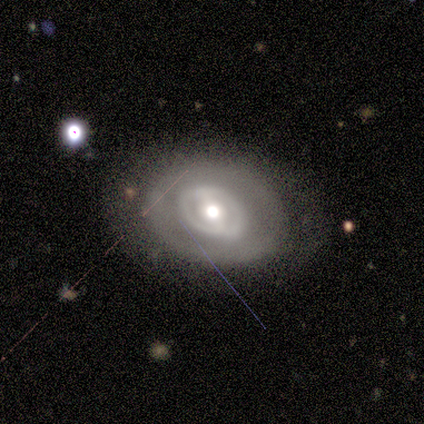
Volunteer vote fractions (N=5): smooth_or_featured: featured or disk (p=0.80) [alt: smooth p=0.20]
disk_edge_on: no (p=1.00)
bar: weak (p=0.75) [alt: no p=0.25]
has_spiral_arms: yes (p=0.50) [tied with: no p=0.50]
spiral_winding: medium (p=0.50) [tied with: loose p=0.50]
spiral_arm_count: 1 (p=0.50) [tied with: can't tell p=0.50]
bulge_size: large (p=0.50) [alt: moderate p=0.25]
merging: none (p=1.00)